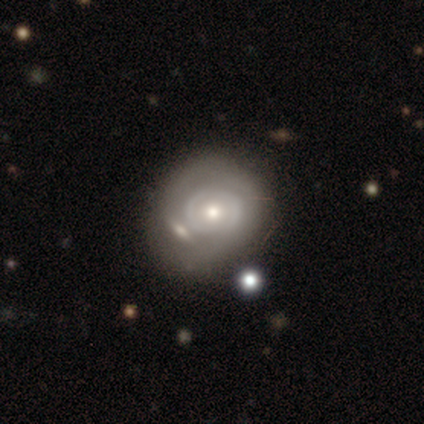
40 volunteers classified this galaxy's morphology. Q: Smooth or featured?
A: featured or disk (57%); runner-up: smooth (35%)
Q: Edge-on disk?
A: no (91%); runner-up: yes (9%)
Q: Bar?
A: no (86%); runner-up: weak (10%)
Q: Spiral arms?
A: no (57%); runner-up: yes (43%)
Q: Bulge size?
A: moderate (71%); runner-up: small (29%)
Q: Merging?
A: none (59%); runner-up: merger (19%)